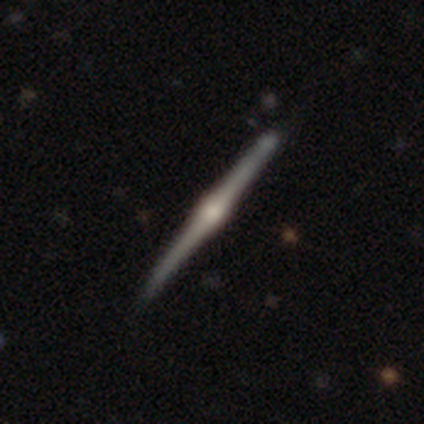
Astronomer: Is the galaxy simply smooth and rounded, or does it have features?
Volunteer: featured or disk — 100%.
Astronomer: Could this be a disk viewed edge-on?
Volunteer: yes — 100%.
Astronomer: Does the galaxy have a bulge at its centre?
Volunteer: rounded — 60% (runner-up: boxy, 40%).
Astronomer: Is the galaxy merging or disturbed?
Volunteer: none — 60%.